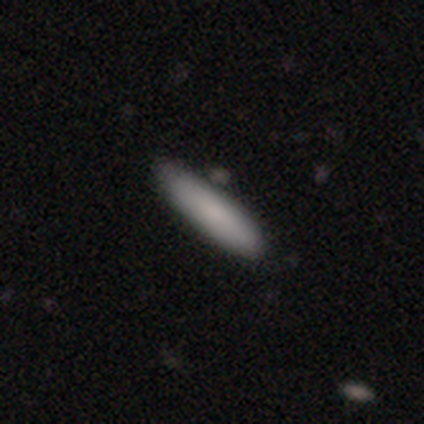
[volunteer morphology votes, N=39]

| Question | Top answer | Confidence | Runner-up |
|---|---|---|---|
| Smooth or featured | smooth | 72% | featured or disk (18%) |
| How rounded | cigar-shaped | 82% | in between (18%) |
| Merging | none | 83% | minor disturbance (9%) |